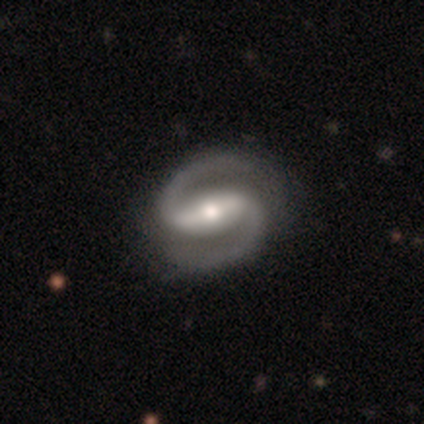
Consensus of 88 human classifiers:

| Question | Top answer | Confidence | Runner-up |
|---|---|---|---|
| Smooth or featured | featured or disk | 93% | smooth (6%) |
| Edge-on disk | no | 96% | yes (4%) |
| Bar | strong | 70% | weak (22%) |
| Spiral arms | yes | 100% | — |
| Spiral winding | medium | 66% | tight (22%) |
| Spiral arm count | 2 | 100% | — |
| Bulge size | moderate | 61% | small (29%) |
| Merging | none | 89% | minor disturbance (6%) |